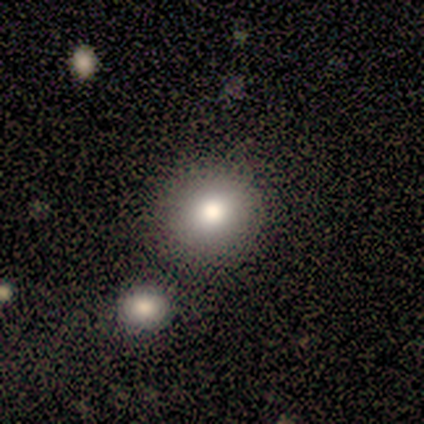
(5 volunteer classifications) Morphology: type=smooth (100%); roundness=round (80%); merging=none (100%).